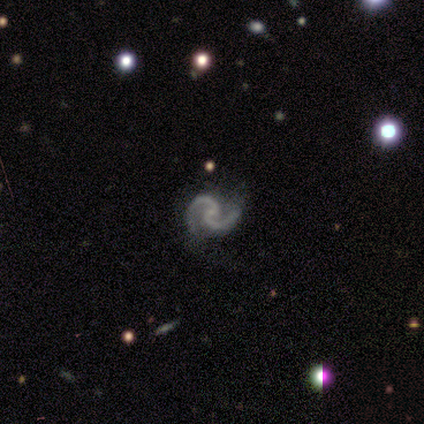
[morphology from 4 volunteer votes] Volunteers were most divided on "spiral winding": medium: 50%, tight: 25%, loose: 25%. More confident: smooth or featured — featured or disk (100%); edge-on disk — no (100%); bar — no (100%); spiral arms — yes (100%); spiral arm count — 2 (100%); bulge size — small (75%); merging — minor disturbance (50%).